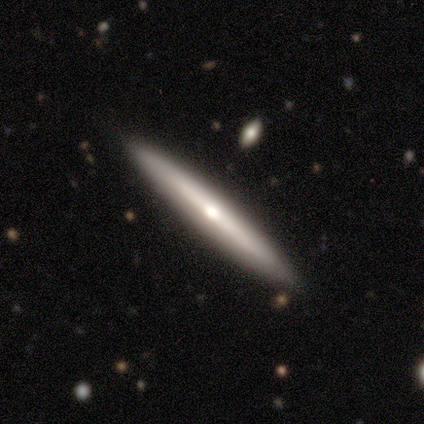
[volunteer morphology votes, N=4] This appears to be a featured or disk galaxy (75%) viewed edge-on (100%) with a rounded central bulge (67%). Merging: none (100%).